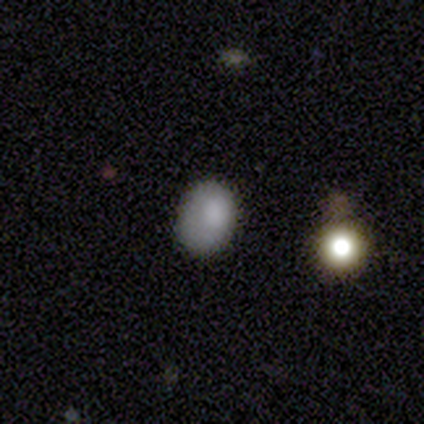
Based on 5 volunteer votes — This is clearly a smooth galaxy (80%). How rounded: clearly in between (100%). Merging: likely none (60%).